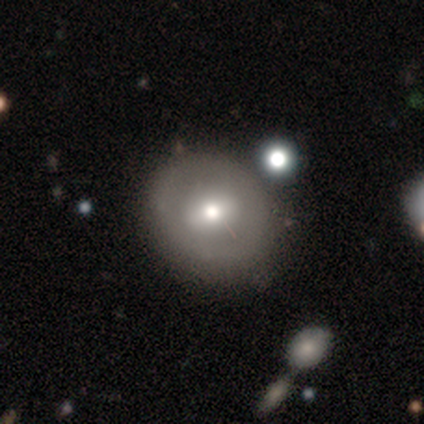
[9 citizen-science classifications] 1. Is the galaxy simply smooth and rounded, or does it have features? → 56% featured or disk, 33% smooth, 11% star or artifact.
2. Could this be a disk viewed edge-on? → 80% no, 20% yes.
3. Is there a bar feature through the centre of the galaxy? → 50% weak (tied), 50% no (tied), 0% strong.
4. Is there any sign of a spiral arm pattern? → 100% no, 0% yes.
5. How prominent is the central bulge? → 50% small, 25% large, 25% moderate, 0% dominant, 0% none.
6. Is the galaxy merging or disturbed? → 100% none, 0% minor disturbance, 0% major disturbance, 0% merger.